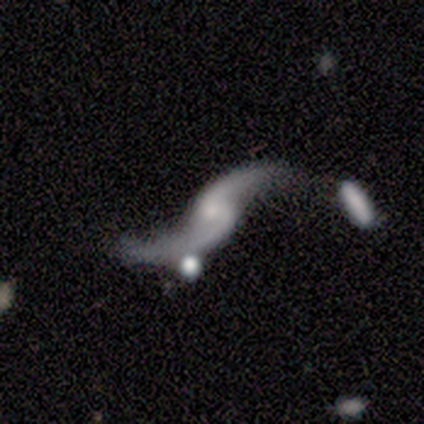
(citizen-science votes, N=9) featured or disk 100%, smooth 0%, star or artifact 0%. Down the decision tree: edge-on disk — no (100%); bar — weak (44%, tied with no); spiral arms — yes (89%); spiral arm count — 2 (88%); spiral winding — loose (100%); bulge size — moderate (44%, tied with small); merging — none (44%).